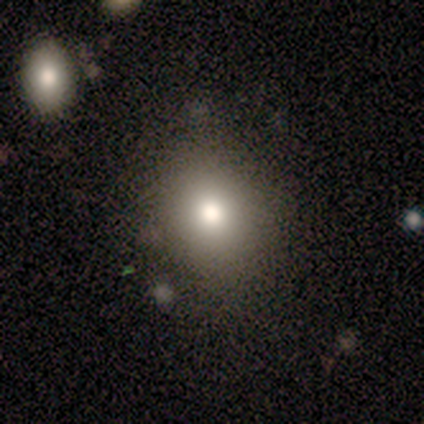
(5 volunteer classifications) A smooth galaxy with no disk features (80%) that is round (75%). Merging: none (100%).